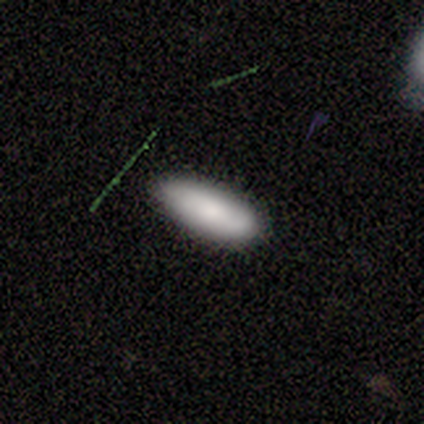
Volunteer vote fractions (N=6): smooth-or-featured: smooth: 50% | featured or disk: 33% | star or artifact: 17%
  how-rounded: in between: 100% | round: 0% | cigar-shaped: 0%
  merging: none: 60% | minor disturbance: 20% | merger: 20% | major disturbance: 0%